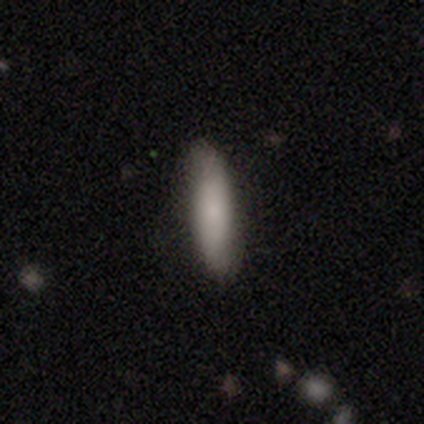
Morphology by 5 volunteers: Smooth or featured? smooth (100%)
How rounded? cigar-shaped (60%)
Merging? none (80%)